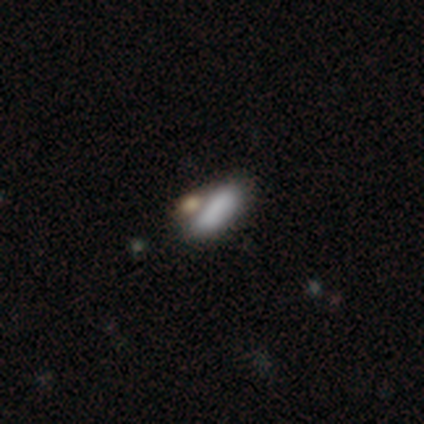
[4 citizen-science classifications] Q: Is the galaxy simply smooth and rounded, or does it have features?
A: smooth — 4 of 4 (100%).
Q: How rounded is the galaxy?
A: in between — 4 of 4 (100%).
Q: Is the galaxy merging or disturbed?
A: none — 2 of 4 (50%, tied with merger).